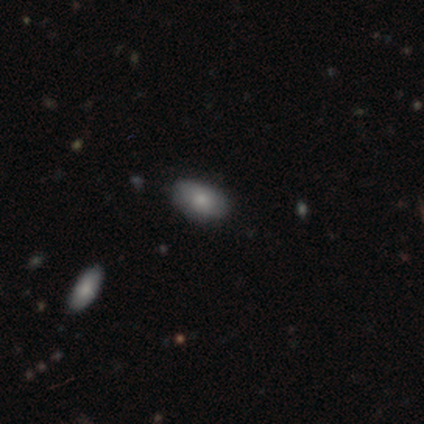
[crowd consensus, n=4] A smooth galaxy with no disk features (75%) that is in between round and cigar-shaped (100%).

Vote fractions:
- Smooth or featured? smooth: 75% / star or artifact: 25% / featured or disk: 0%
- How rounded? in between: 100% / round: 0% / cigar-shaped: 0%
- Merging? none: 67% / minor disturbance: 33% / major disturbance: 0% / merger: 0%